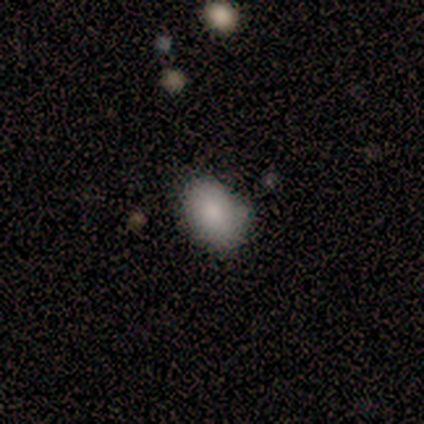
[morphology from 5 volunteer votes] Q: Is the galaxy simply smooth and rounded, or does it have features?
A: smooth — 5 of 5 (100%).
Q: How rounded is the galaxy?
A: in between — 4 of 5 (80%).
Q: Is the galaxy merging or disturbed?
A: none — 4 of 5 (80%).